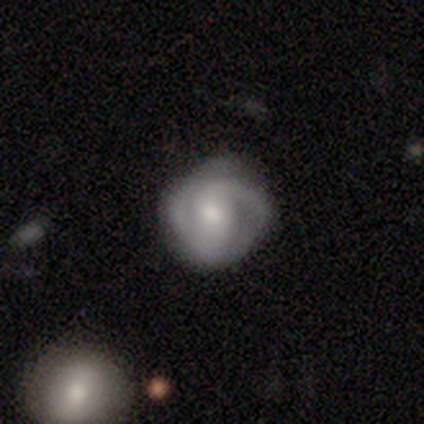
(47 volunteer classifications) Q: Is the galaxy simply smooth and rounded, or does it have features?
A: featured or disk — 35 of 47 (74%).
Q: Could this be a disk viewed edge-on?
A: no — 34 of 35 (97%).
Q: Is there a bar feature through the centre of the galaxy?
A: weak — 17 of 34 (50%).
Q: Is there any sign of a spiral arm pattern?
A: yes — 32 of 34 (94%).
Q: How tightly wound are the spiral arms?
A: tight — 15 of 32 (47%).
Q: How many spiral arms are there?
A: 2 — 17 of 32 (53%).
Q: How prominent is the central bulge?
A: moderate — 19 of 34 (56%).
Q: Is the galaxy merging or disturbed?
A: none — 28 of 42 (67%).